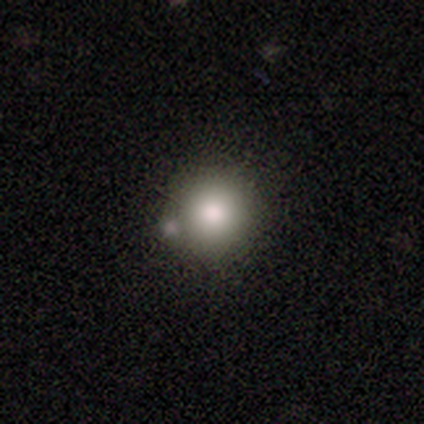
smooth 72%, featured or disk 18%, star or artifact 10%. Down the decision tree: how rounded — round (93%); merging — none (50%).